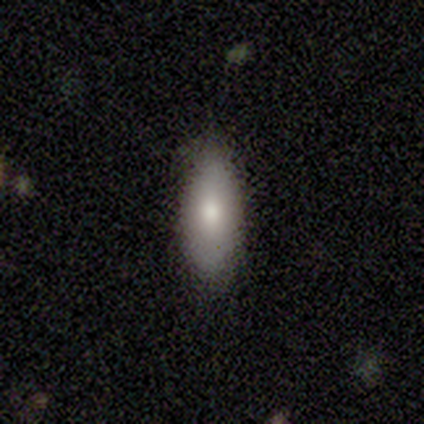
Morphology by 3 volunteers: smooth 100%, featured or disk 0%, star or artifact 0%. Down the decision tree: how rounded — in between (67%); merging — none (100%).